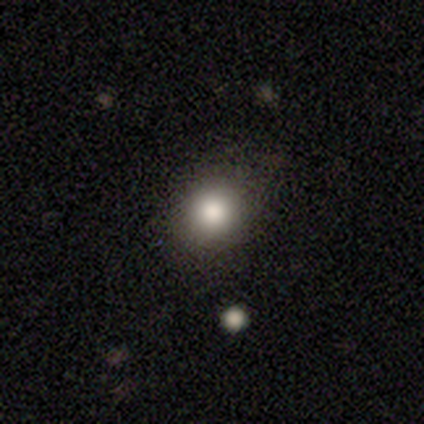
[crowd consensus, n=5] Overall: smooth (80%). How rounded: round (75%). Merging: none (100%).